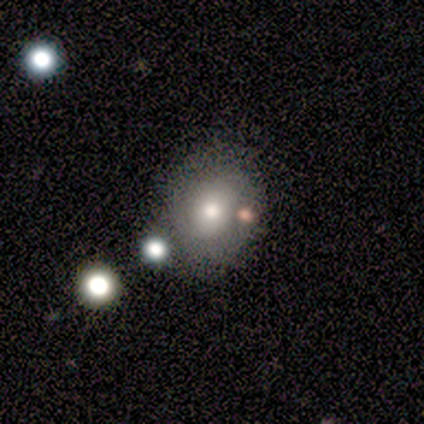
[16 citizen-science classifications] Smooth or featured: smooth — 81% (featured or disk — 12%)
How rounded: round — 69% (in between — 31%)
Merging: none — 53% (merger — 33%)